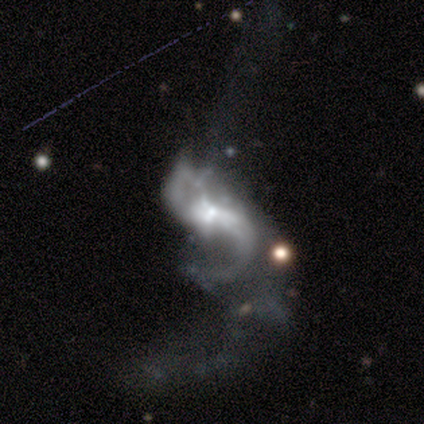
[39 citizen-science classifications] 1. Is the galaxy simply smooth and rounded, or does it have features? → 95% featured or disk, 3% smooth, 3% star or artifact.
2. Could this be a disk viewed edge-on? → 97% no, 3% yes.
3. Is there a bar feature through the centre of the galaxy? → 44% weak, 39% no, 17% strong.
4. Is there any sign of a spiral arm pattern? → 83% yes, 17% no.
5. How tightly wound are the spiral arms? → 73% loose, 27% medium, 0% tight.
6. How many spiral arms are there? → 73% 2, 17% 1, 10% can't tell, 0% 3, 0% 4, 0% more than 4.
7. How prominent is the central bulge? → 50% moderate, 39% small, 8% none, 3% large, 0% dominant.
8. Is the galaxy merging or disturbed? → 47% major disturbance, 18% minor disturbance, 18% merger, 16% none.